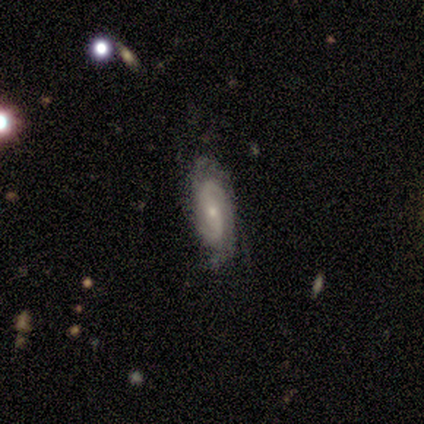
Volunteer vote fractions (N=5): Smooth or featured?
  - featured or disk: 60% *
  - smooth: 20%
  - star or artifact: 20%
Edge-on disk?
  - no: 100% *
  - yes: 0%
Bar?
  - strong: 33% * (tied)
  - weak: 33% * (tied)
  - no: 33% * (tied)
Spiral arms?
  - yes: 100% *
  - no: 0%
Spiral winding?
  - tight: 67% *
  - medium: 33%
  - loose: 0%
Spiral arm count?
  - 2: 100% *
  - 1: 0%
  - 3: 0%
  - 4: 0%
  - more than 4: 0%
  - can't tell: 0%
Bulge size?
  - small: 100% *
  - dominant: 0%
  - large: 0%
  - moderate: 0%
  - none: 0%
Merging?
  - none: 100% *
  - minor disturbance: 0%
  - major disturbance: 0%
  - merger: 0%